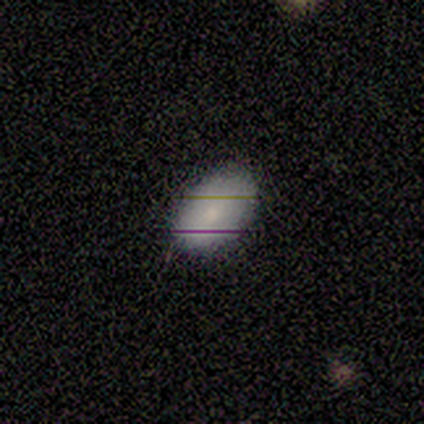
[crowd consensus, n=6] A smooth galaxy with no disk features (100%) that is in between round and cigar-shaped (100%).

Vote fractions:
- Smooth or featured? smooth: 100% / featured or disk: 0% / star or artifact: 0%
- How rounded? in between: 100% / round: 0% / cigar-shaped: 0%
- Merging? none: 83% / minor disturbance: 17% / major disturbance: 0% / merger: 0%